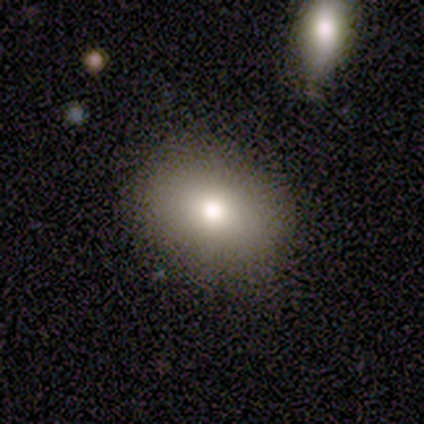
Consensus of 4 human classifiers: Smooth or featured? smooth (100%)
How rounded? round (75%)
Merging? none (100%)